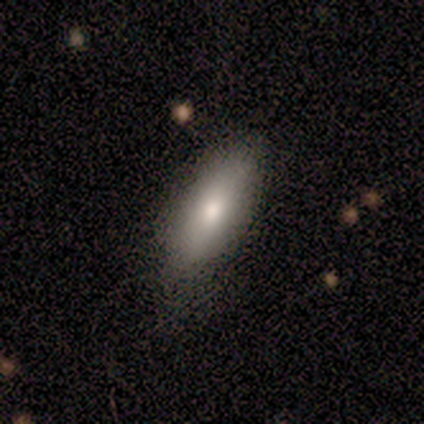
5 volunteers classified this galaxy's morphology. Smooth or featured?
  - smooth: 60% *
  - featured or disk: 40%
  - star or artifact: 0%
How rounded?
  - in between: 67% *
  - round: 33%
  - cigar-shaped: 0%
Merging?
  - none: 80% *
  - minor disturbance: 20%
  - major disturbance: 0%
  - merger: 0%